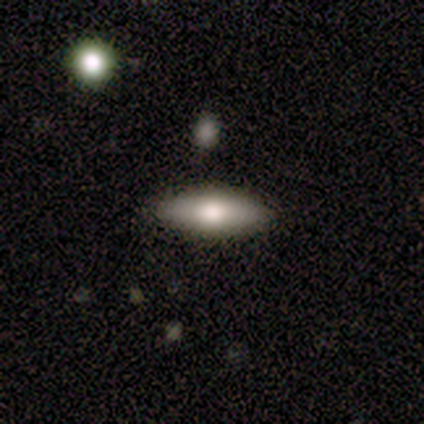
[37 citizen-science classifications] Smooth or featured?
  - smooth: 78% *
  - featured or disk: 22%
  - star or artifact: 0%
How rounded?
  - in between: 62% *
  - cigar-shaped: 38%
  - round: 0%
Merging?
  - none: 92% *
  - minor disturbance: 8%
  - major disturbance: 0%
  - merger: 0%